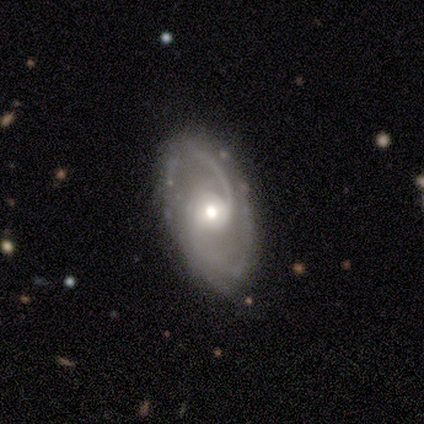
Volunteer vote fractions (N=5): Morphology: type=featured or disk (100%); edge-on=no (80%); bar=weak (50%, tied with no); spiral arms=yes (100%); winding=loose (75%); arm count=2 (100%); bulge=moderate (75%); merging=none (80%).